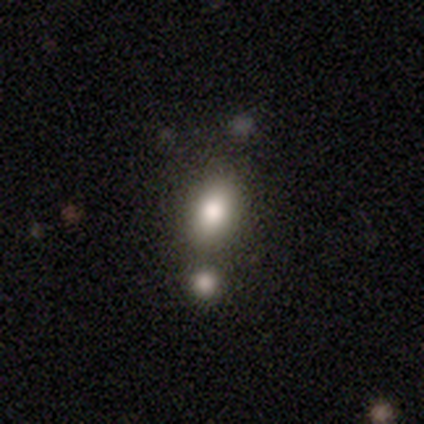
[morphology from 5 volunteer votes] smooth-or-featured: smooth: 80% | star or artifact: 20% | featured or disk: 0%
  how-rounded: in between: 75% | cigar-shaped: 25% | round: 0%
  merging: none: 50% | minor disturbance: 25% | merger: 25% | major disturbance: 0%